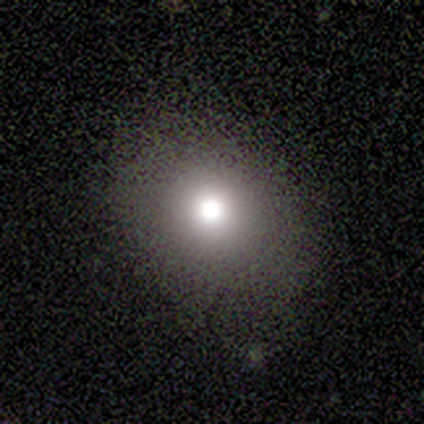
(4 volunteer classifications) A smooth galaxy with no disk features (50%) that is round (100%). Merging: none (100%).